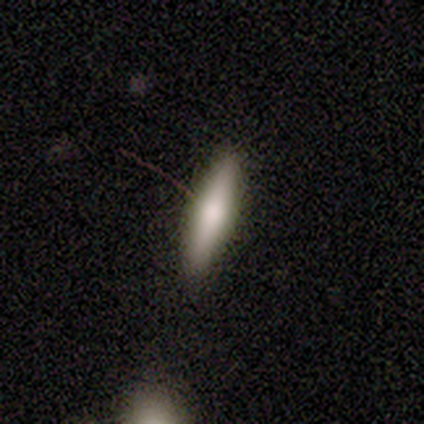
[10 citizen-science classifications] Overall: smooth (60%; featured or disk 30%). How rounded: cigar-shaped (100%). Merging: none (89%).